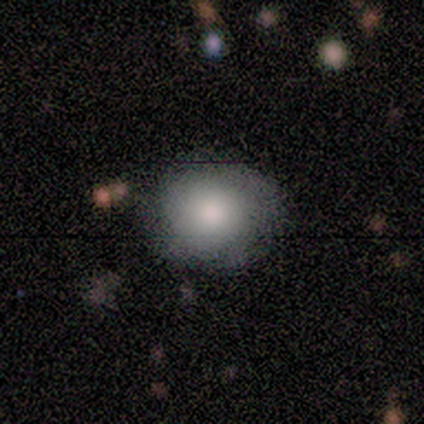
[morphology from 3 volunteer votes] Volunteers were most divided on "smooth or featured": smooth: 67%, star or artifact: 33%, featured or disk: 0%. More confident: how rounded — round (100%); merging — none (100%).